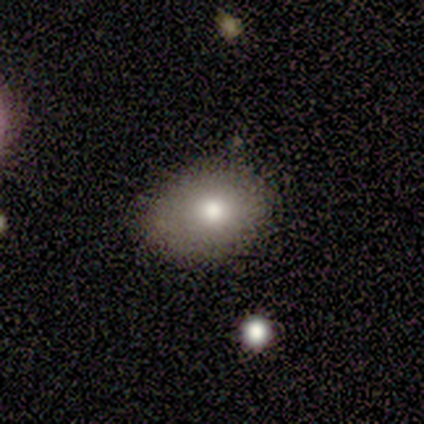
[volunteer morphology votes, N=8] Smooth or featured? smooth (88%)
How rounded? in between (57%)
Merging? none (86%)